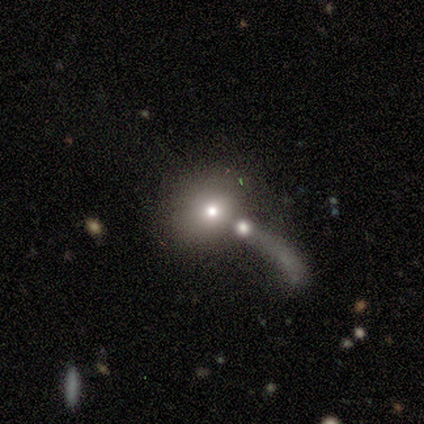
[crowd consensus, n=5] smooth 60%, star or artifact 40%, featured or disk 0%. Down the decision tree: how rounded — round (67%); merging — merger (67%).